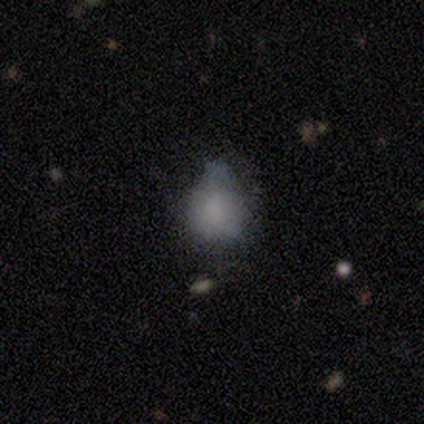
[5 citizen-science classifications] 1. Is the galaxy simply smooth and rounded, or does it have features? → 80% smooth, 20% star or artifact, 0% featured or disk.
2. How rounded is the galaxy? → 50% round (tied), 50% in between (tied), 0% cigar-shaped.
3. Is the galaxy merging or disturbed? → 75% minor disturbance, 25% major disturbance, 0% none, 0% merger.